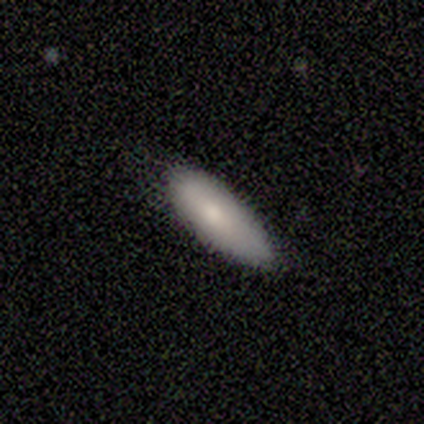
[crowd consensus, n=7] A smooth galaxy with no disk features (86%) that is in between round and cigar-shaped (100%).

Vote fractions:
- Smooth or featured? smooth: 86% / star or artifact: 14% / featured or disk: 0%
- How rounded? in between: 100% / round: 0% / cigar-shaped: 0%
- Merging? none: 83% / minor disturbance: 17% / major disturbance: 0% / merger: 0%